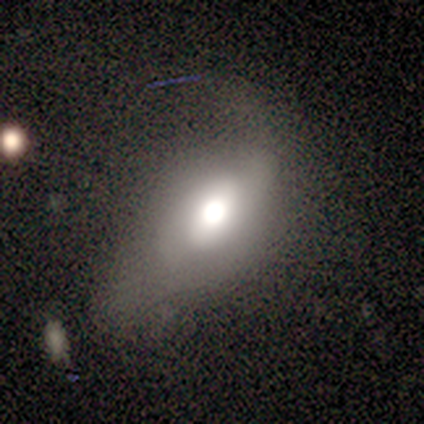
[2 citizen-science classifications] Smooth or featured?
  - smooth: 50% * (tied)
  - star or artifact: 50% * (tied)
  - featured or disk: 0%
How rounded?
  - round: 100% *
  - in between: 0%
  - cigar-shaped: 0%
Merging?
  - none: 100% *
  - minor disturbance: 0%
  - major disturbance: 0%
  - merger: 0%